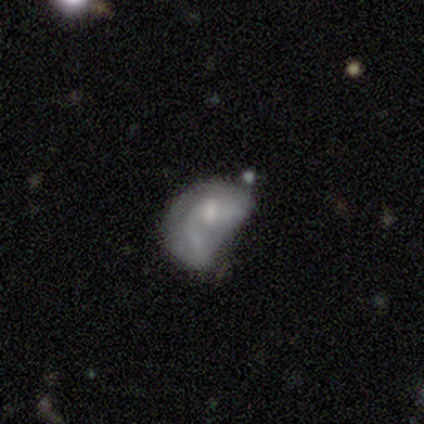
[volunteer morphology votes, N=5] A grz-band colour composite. It shows a featured or disk galaxy (60%) with a weak bar (67%), 2 (67%) loose (100%) spiral arms (100%) and a small central bulge (67%). Merging: major disturbance (75%).